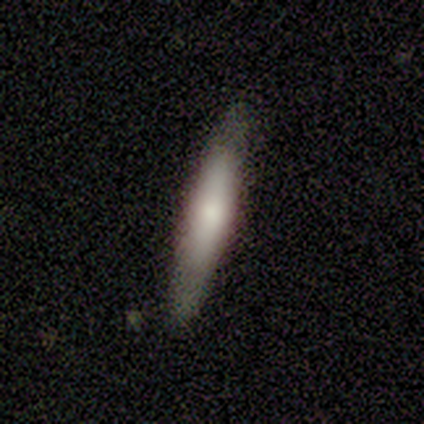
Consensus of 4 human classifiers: Smooth or featured?
  - smooth: 100% *
  - featured or disk: 0%
  - star or artifact: 0%
How rounded?
  - in between: 50% * (tied)
  - cigar-shaped: 50% * (tied)
  - round: 0%
Merging?
  - none: 100% *
  - minor disturbance: 0%
  - major disturbance: 0%
  - merger: 0%